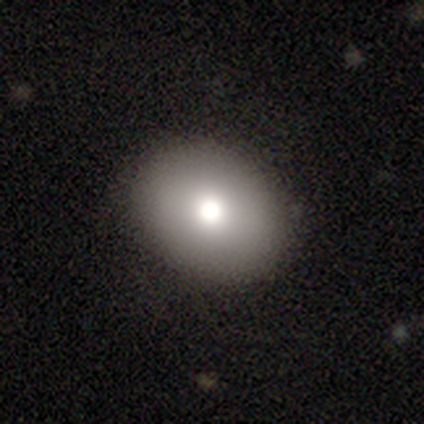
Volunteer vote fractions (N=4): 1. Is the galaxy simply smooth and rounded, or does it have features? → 75% smooth, 25% star or artifact, 0% featured or disk.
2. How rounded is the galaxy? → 67% round, 33% in between, 0% cigar-shaped.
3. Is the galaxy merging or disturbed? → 67% none, 33% merger, 0% minor disturbance, 0% major disturbance.